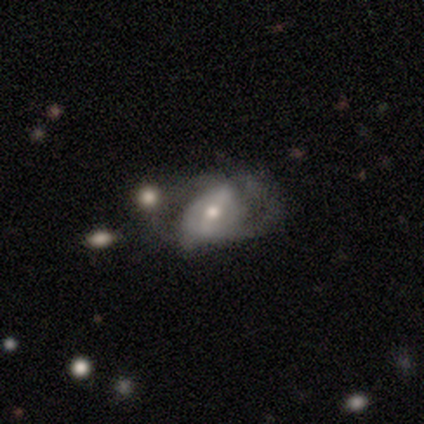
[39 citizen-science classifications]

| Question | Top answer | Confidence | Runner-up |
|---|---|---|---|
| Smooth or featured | featured or disk | 79% | smooth (15%) |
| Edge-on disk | no | 97% | yes (3%) |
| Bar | strong | 50% | weak (37%) |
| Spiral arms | yes | 73% | no (27%) |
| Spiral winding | loose | 45% | medium (36%) |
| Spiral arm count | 2 | 73% | can't tell (23%) |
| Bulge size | moderate | 70% | small (30%) |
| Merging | major disturbance | 41% | none (27%) |